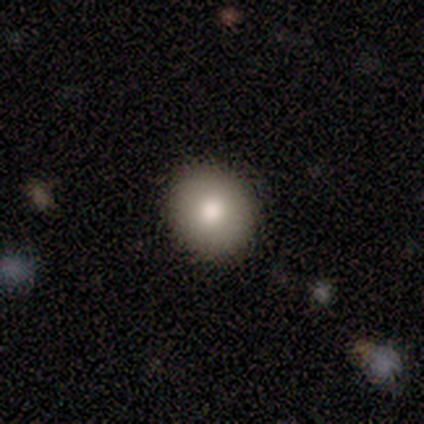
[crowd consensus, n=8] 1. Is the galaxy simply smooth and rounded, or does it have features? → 75% smooth, 12% featured or disk, 12% star or artifact.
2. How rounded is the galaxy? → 100% round, 0% in between, 0% cigar-shaped.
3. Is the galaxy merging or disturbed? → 86% none, 14% minor disturbance, 0% major disturbance, 0% merger.